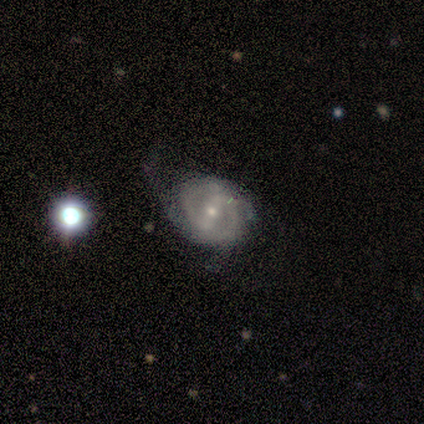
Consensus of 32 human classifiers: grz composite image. It shows a featured or disk galaxy (88%) with a strong bar (48%), 2 (74%) tight (43%) spiral arms (85%) and a small central bulge (70%). Merging: none (47%).